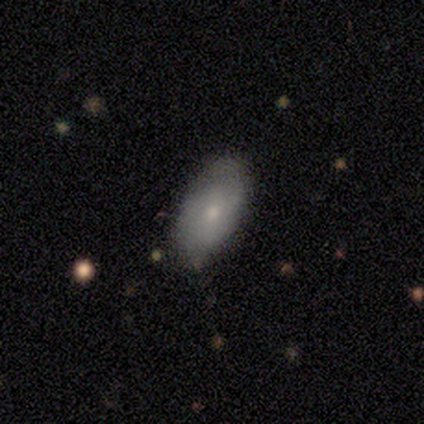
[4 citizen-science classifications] This appears to be a featured or disk galaxy (75%) with no bar (67%), no spiral arms (67%) and a small central bulge (67%). Merging: none (75%).